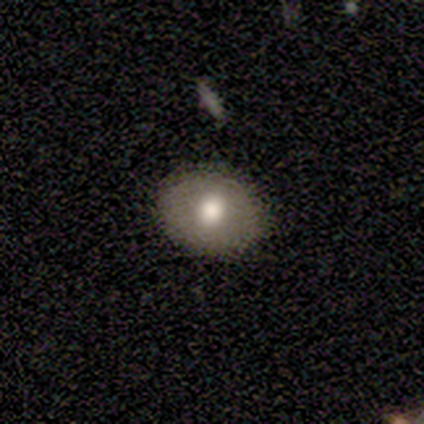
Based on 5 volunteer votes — A smooth galaxy with no disk features (60%) that is in between round and cigar-shaped (67%). Merging: none (100%).